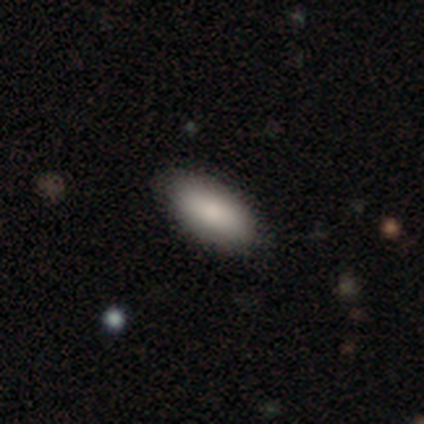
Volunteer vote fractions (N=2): A smooth galaxy with no disk features (100%) that is in between round and cigar-shaped (100%).

Vote fractions:
- Smooth or featured? smooth: 100% / featured or disk: 0% / star or artifact: 0%
- How rounded? in between: 100% / round: 0% / cigar-shaped: 0%
- Merging? none: 100% / minor disturbance: 0% / major disturbance: 0% / merger: 0%